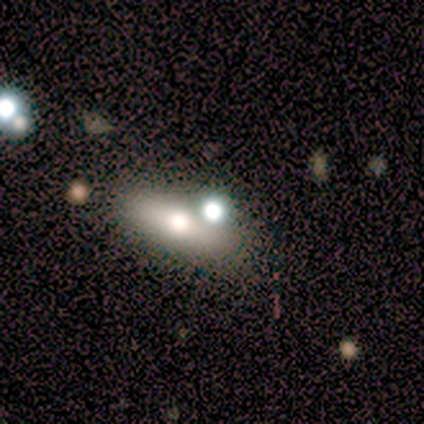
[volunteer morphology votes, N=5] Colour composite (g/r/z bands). It shows a featured or disk galaxy (60%) viewed edge-on (67%) with a rounded central bulge (100%). Merging: none (75%).